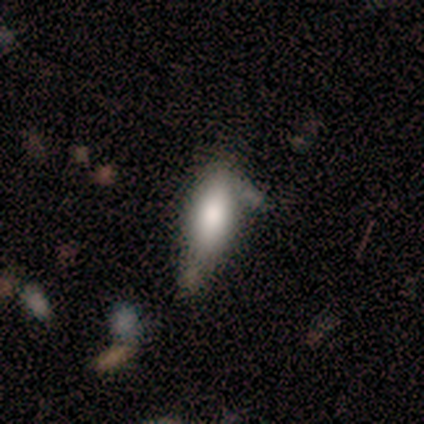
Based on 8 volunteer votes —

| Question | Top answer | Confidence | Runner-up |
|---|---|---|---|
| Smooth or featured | smooth | 100% | — |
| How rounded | in between | 88% | cigar-shaped (12%) |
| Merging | minor disturbance | 62% | none (38%) |